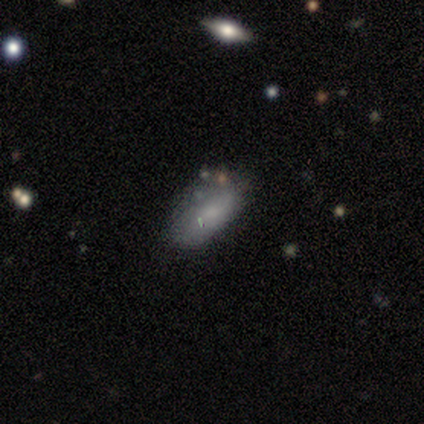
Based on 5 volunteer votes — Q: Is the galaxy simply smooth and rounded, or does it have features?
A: smooth — 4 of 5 (80%).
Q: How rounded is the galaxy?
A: in between — 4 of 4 (100%).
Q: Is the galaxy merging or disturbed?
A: none — 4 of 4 (100%).